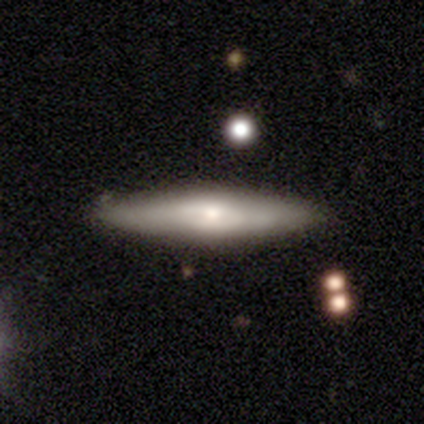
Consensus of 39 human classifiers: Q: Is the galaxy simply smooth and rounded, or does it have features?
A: featured or disk — 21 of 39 (54%).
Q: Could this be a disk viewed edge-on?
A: yes — 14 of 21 (67%).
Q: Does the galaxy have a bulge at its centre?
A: rounded — 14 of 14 (100%).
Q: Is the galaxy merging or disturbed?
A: none — 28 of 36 (78%).